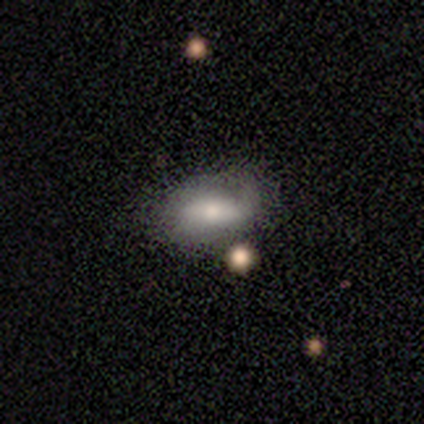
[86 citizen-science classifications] Smooth or featured?
  - smooth: 59% *
  - featured or disk: 34%
  - star or artifact: 7%
How rounded?
  - in between: 90% *
  - cigar-shaped: 8%
  - round: 2%
Merging?
  - none: 50% *
  - minor disturbance: 39%
  - major disturbance: 9%
  - merger: 2%